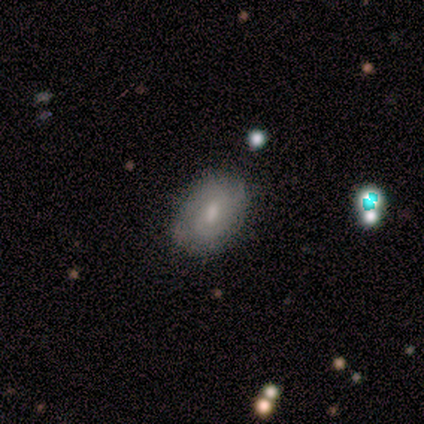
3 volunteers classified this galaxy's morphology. Q: Smooth or featured?
A: featured or disk (67%); runner-up: smooth (33%)
Q: Edge-on disk?
A: no (100%)
Q: Bar?
A: no (100%)
Q: Spiral arms?
A: yes (50%); tied with: no (50%)
Q: Spiral winding?
A: tight (100%)
Q: Spiral arm count?
A: 2 (100%)
Q: Bulge size?
A: moderate (100%)
Q: Merging?
A: none (67%); runner-up: minor disturbance (33%)